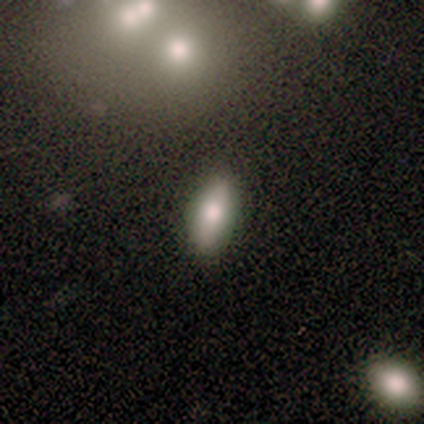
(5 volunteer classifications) Morphology: type=smooth (100%); roundness=in between (80%); merging=none (100%).